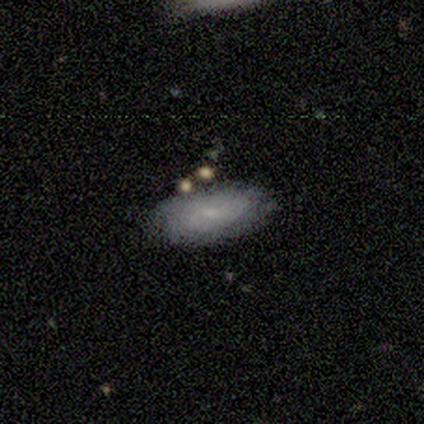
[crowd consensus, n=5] A smooth galaxy with no disk features (80%) that is in between round and cigar-shaped (100%).

Vote fractions:
- Smooth or featured? smooth: 80% / featured or disk: 20% / star or artifact: 0%
- How rounded? in between: 100% / round: 0% / cigar-shaped: 0%
- Merging? none: 80% / minor disturbance: 20% / major disturbance: 0% / merger: 0%